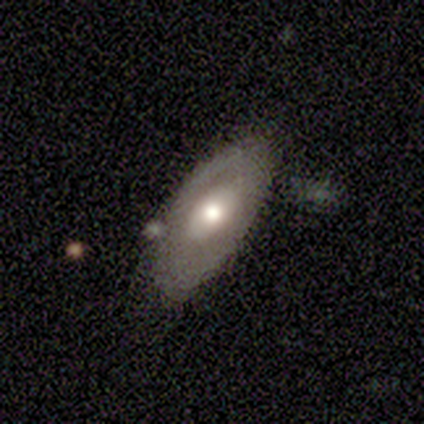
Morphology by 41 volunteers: This is possibly a featured or disk galaxy (59%). It is likely not viewed edge-on (79%). Bar: likely no (79%). Spiral arm pattern: likely no (63%). Central bulge: likely moderate (79%). Merging: likely none (65%).